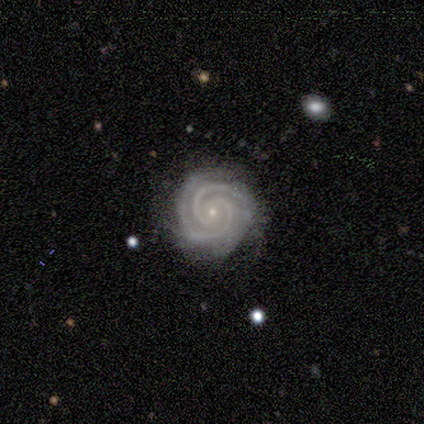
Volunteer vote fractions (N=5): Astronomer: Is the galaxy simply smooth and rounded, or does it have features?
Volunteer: featured or disk — 100%.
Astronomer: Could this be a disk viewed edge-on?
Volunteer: no — 100%.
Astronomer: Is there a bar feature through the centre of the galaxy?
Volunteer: no — 60% (runner-up: weak, 40%).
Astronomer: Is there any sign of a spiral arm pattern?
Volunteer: yes — 80%.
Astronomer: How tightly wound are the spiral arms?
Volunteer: tight — 100%.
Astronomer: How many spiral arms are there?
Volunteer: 2 — 100%.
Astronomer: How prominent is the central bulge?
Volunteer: small — 100%.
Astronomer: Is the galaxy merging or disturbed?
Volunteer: none — 100%.